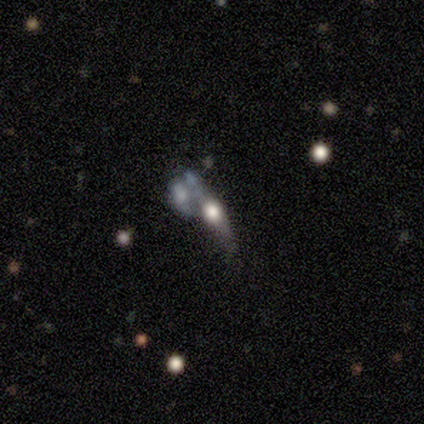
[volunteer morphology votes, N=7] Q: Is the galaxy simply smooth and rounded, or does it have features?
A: featured or disk — 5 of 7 (71%).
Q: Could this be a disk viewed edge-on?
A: yes — 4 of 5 (80%).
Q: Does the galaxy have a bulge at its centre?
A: rounded — 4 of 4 (100%).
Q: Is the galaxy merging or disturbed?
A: major disturbance — 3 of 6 (50%, tied with merger).